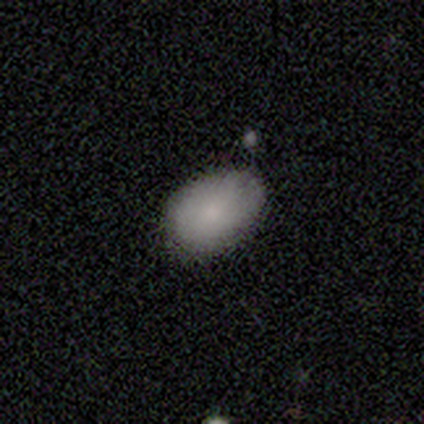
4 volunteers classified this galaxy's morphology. smooth_or_featured: smooth (p=0.75) [alt: star or artifact p=0.25]
how_rounded: in between (p=1.00)
merging: none (p=0.67) [alt: major disturbance p=0.33]